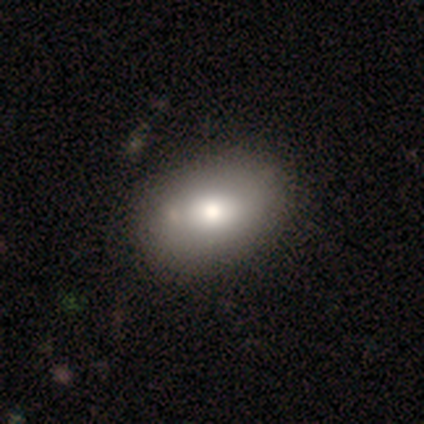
Morphology: type=smooth (100%); roundness=in between (100%); merging=none (80%).